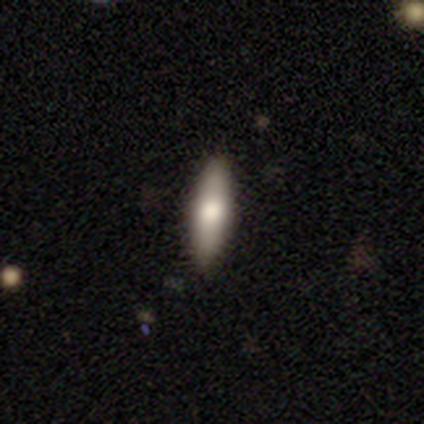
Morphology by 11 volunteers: Q: Smooth or featured?
A: smooth (73%); runner-up: featured or disk (27%)
Q: How rounded?
A: cigar-shaped (75%); runner-up: in between (25%)
Q: Merging?
A: none (91%); runner-up: major disturbance (9%)